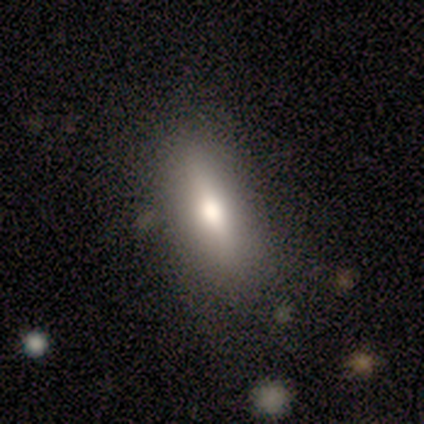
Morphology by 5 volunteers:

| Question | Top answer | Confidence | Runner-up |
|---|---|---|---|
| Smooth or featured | smooth | 80% | featured or disk (20%) |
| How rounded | in between | 100% | — |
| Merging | none | 100% | — |